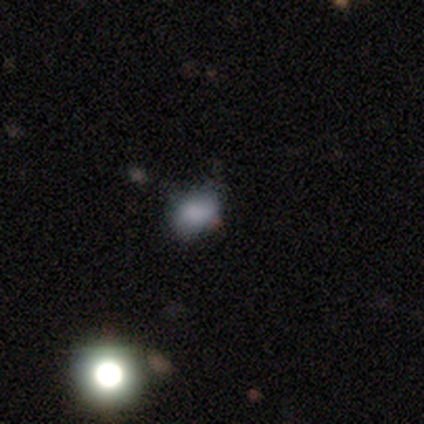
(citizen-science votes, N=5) A smooth galaxy with no disk features (80%) that is round (50%, tied with in between).

Vote fractions:
- Smooth or featured? smooth: 80% / featured or disk: 20% / star or artifact: 0%
- How rounded? round: 50% (tied) / in between: 50% (tied) / cigar-shaped: 0%
- Merging? none: 100% / minor disturbance: 0% / major disturbance: 0% / merger: 0%